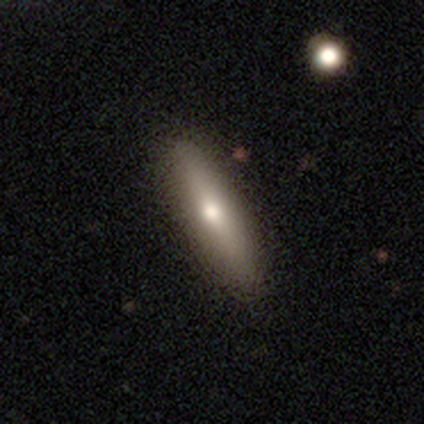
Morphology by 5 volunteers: This appears to be a smooth galaxy with no disk features (60%) that is in between round and cigar-shaped (67%). Merging: none (100%).